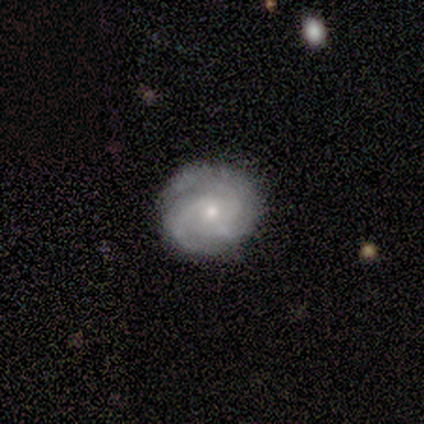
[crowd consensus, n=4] smooth-or-featured: featured or disk: 100% | smooth: 0% | star or artifact: 0%
  disk-edge-on: no: 75% | yes: 25%
    bar: no: 100% | strong: 0% | weak: 0%
    has-spiral-arms: yes: 67% | no: 33%
      spiral-winding: tight: 50% (tied) | loose: 50% (tied) | medium: 0%
      spiral-arm-count: 2: 50% (tied) | can't tell: 50% (tied) | 1: 0% | 3: 0% | 4: 0% | more than 4: 0%
    bulge-size: moderate: 67% | small: 33% | dominant: 0% | large: 0% | none: 0%
  merging: none: 50% (tied) | minor disturbance: 50% (tied) | major disturbance: 0% | merger: 0%